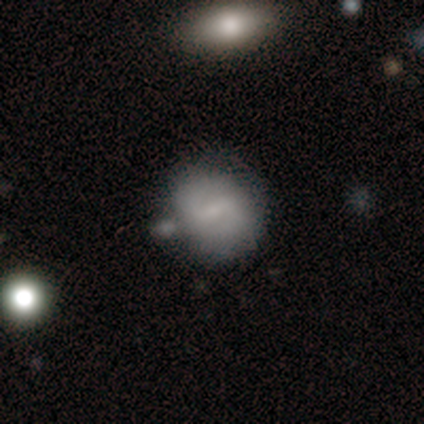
Smooth or featured?
  - featured or disk: 51% *
  - smooth: 44%
  - star or artifact: 5%
Edge-on disk?
  - no: 97% *
  - yes: 3%
Bar?
  - weak: 47% *
  - strong: 39%
  - no: 13%
Spiral arms?
  - yes: 89% *
  - no: 11%
Spiral winding?
  - medium: 56% *
  - loose: 26%
  - tight: 18%
Spiral arm count?
  - 2: 94% *
  - can't tell: 6%
  - 1: 0%
  - 3: 0%
  - 4: 0%
  - more than 4: 0%
Bulge size?
  - small: 58% *
  - none: 26%
  - moderate: 13%
  - dominant: 3%
  - large: 0%
Merging?
  - merger: 26% *
  - none: 21%
  - minor disturbance: 15%
  - major disturbance: 3%